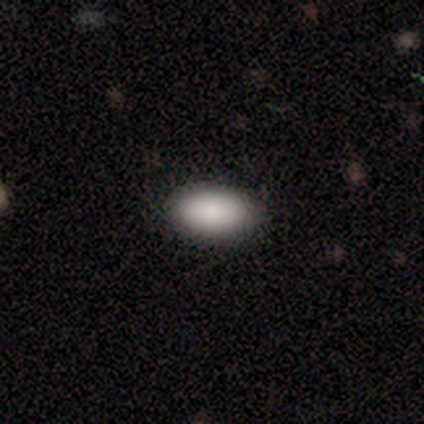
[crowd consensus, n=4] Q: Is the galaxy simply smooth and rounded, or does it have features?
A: smooth — 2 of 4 (50%, tied with featured or disk).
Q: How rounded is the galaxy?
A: in between — 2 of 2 (100%).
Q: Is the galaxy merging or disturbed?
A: none — 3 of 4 (75%).